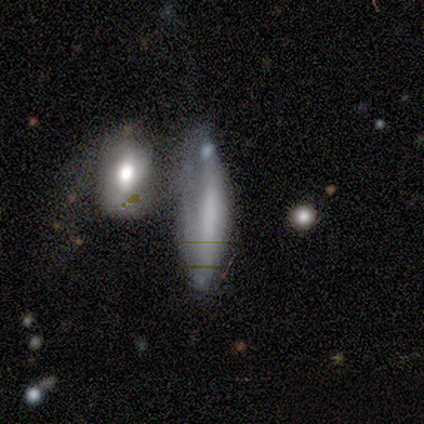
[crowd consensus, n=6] smooth-or-featured: smooth: 50% | featured or disk: 33% | star or artifact: 17%
  how-rounded: cigar-shaped: 67% | in between: 33% | round: 0%
  merging: merger: 60% | minor disturbance: 20% | major disturbance: 20% | none: 0%